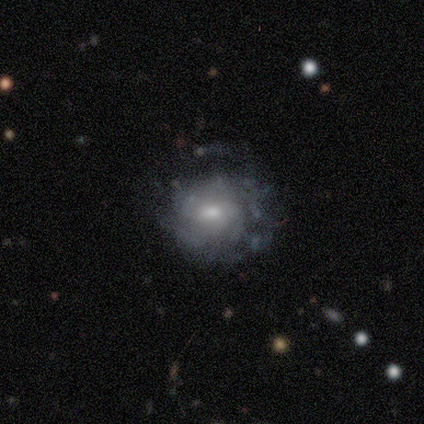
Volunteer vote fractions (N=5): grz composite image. It shows a featured or disk galaxy (60%) with no bar (67%), no spiral arms (67%) and a small central bulge (67%). Merging: minor disturbance (60%).